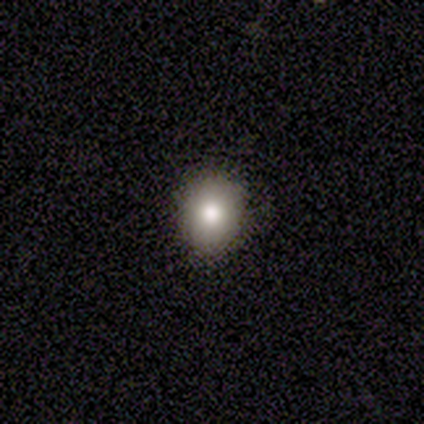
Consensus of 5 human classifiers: Q: Smooth or featured?
A: smooth (100%)
Q: How rounded?
A: round (100%)
Q: Merging?
A: none (80%); runner-up: minor disturbance (20%)